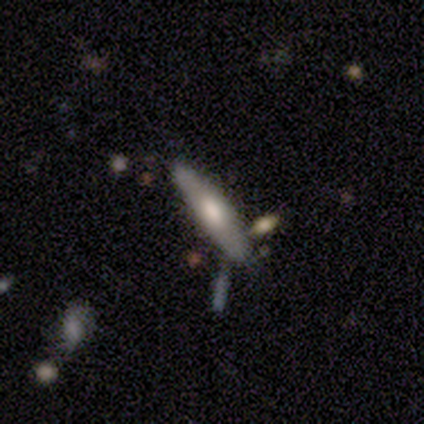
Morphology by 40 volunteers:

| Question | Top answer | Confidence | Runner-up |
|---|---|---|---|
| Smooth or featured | featured or disk | 60% | smooth (32%) |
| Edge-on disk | yes | 67% | no (33%) |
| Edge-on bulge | rounded | 75% | boxy (19%) |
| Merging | none | 73% | minor disturbance (14%) |